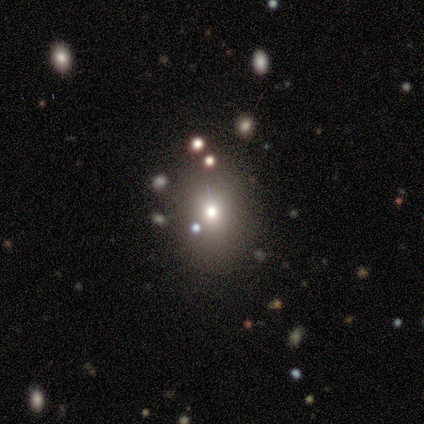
Volunteers were most divided on "smooth or featured" (2-way tie): smooth: 50%, star or artifact: 50%, featured or disk: 0%. More confident: how rounded — in between (75%); merging — none (75%).